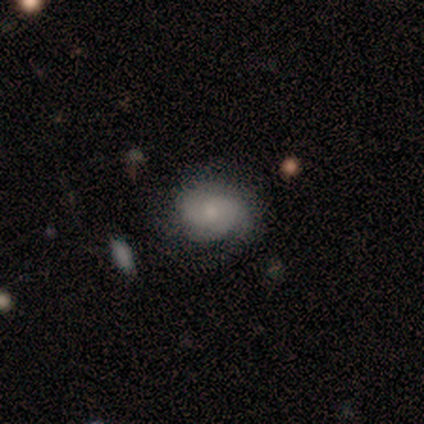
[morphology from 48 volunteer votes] This is possibly a smooth galaxy (54%). How rounded: likely round (62%). Merging: likely none (78%).